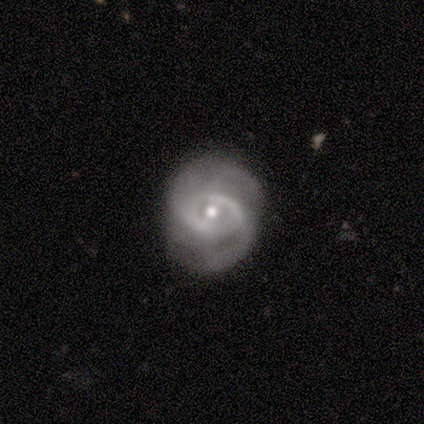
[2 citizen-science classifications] Morphology: type=featured or disk (100%); edge-on=no (100%); bar=weak (50%, tied with no); spiral arms=yes (100%); winding=tight (50%, tied with medium); arm count=2 (50%, tied with 3); bulge=moderate (50%, tied with small); merging=none (100%).